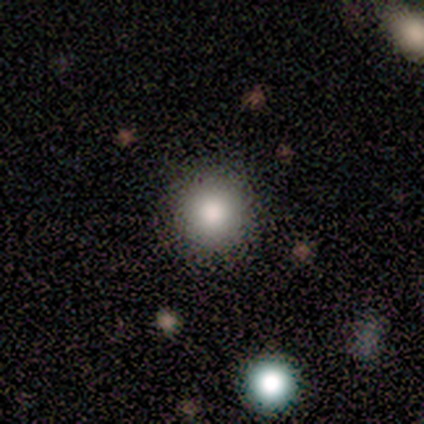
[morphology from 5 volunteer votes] Q: Smooth or featured?
A: smooth (80%); runner-up: star or artifact (20%)
Q: How rounded?
A: round (100%)
Q: Merging?
A: none (75%); runner-up: minor disturbance (25%)